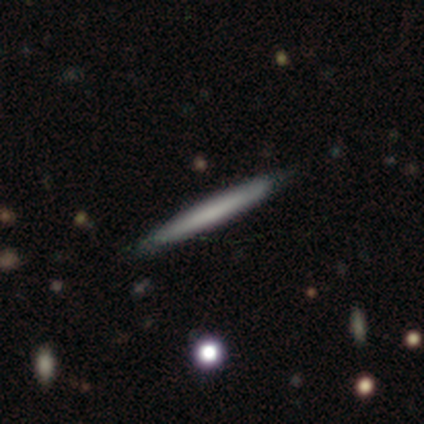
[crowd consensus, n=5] Volunteers were most divided on "smooth or featured": smooth: 60%, featured or disk: 20%, star or artifact: 20%. More confident: how rounded — cigar-shaped (100%); merging — none (100%).